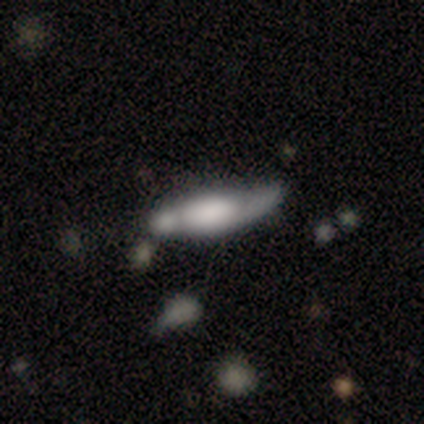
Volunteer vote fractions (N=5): Q: Smooth or featured?
A: smooth (80%); runner-up: featured or disk (20%)
Q: How rounded?
A: in between (50%); tied with: cigar-shaped (50%)
Q: Merging?
A: none (40%); runner-up: minor disturbance (20%)